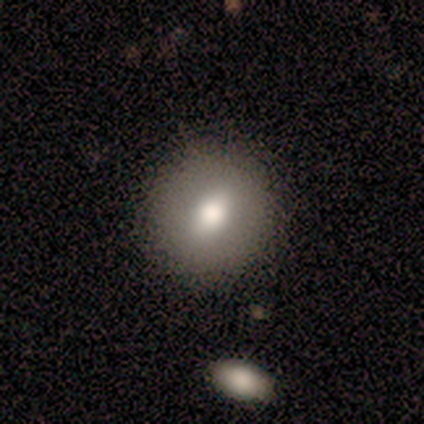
Overall: smooth (80%). How rounded: round (75%). Merging: none (75%).